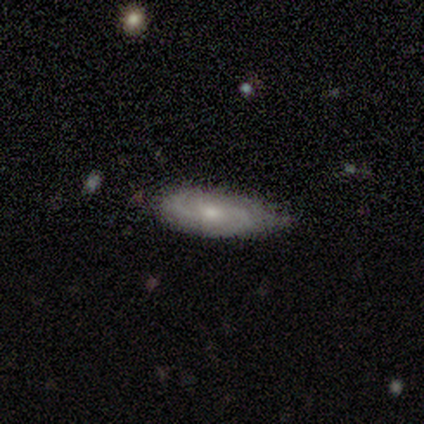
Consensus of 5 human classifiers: Smooth or featured? 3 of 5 (60%) said featured or disk. Edge-on disk? 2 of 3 (67%) said no. Bar? 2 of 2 (100%) said no. Spiral arms? 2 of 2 (100%) said yes. Spiral winding? 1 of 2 (50%, tied with medium) said tight. Spiral arm count? 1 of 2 (50%, tied with 3) said 2. Bulge size? 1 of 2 (50%, tied with small) said moderate. Merging? 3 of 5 (60%) said none.